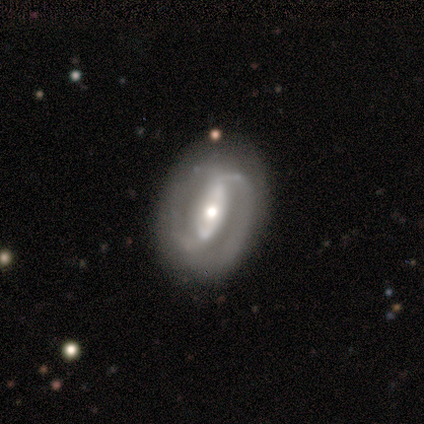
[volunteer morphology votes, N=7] Overall: featured or disk (71%). Edge-on disk: no (100%). Bar: strong (60%; weak 40%). Spiral arms: yes (100%). Spiral arm count: 2 (100%). Spiral winding: tight (40%, tied with medium). Bulge size: moderate (80%). Merging: none (86%).